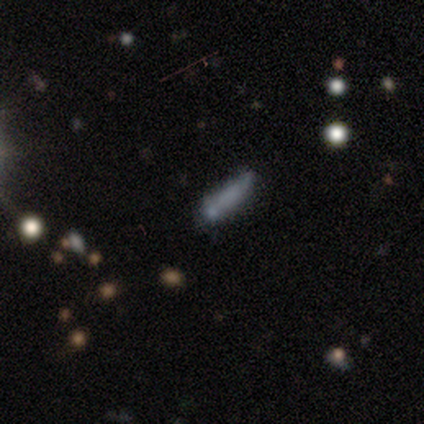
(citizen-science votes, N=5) Smooth or featured?
  - smooth: 80% *
  - star or artifact: 20%
  - featured or disk: 0%
How rounded?
  - cigar-shaped: 75% *
  - in between: 25%
  - round: 0%
Merging?
  - none: 75% *
  - merger: 25%
  - minor disturbance: 0%
  - major disturbance: 0%